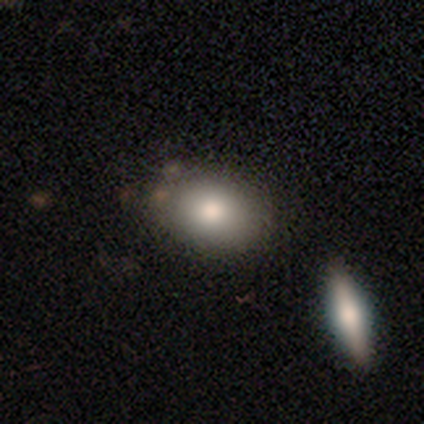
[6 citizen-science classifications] A smooth galaxy with no disk features (50%, tied with featured or disk) that is in between round and cigar-shaped (100%).

Vote fractions:
- Smooth or featured? smooth: 50% (tied) / featured or disk: 50% (tied) / star or artifact: 0%
- How rounded? in between: 100% / round: 0% / cigar-shaped: 0%
- Merging? none: 83% / minor disturbance: 17% / major disturbance: 0% / merger: 0%